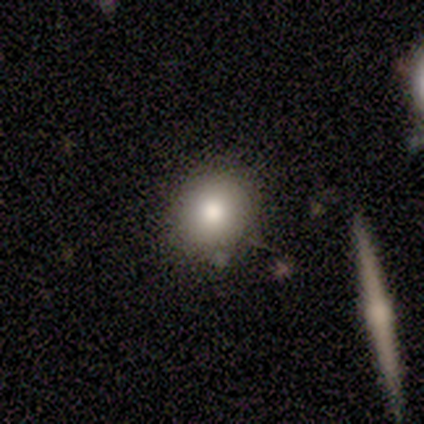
Smooth or featured? 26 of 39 (67%) said smooth. How rounded? 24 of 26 (92%) said round. Merging? 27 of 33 (82%) said none.